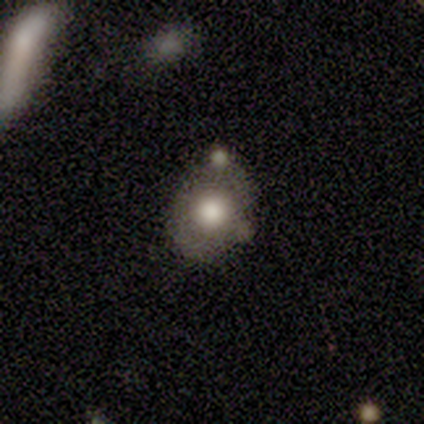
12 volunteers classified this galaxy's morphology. smooth 67%, featured or disk 25%, star or artifact 8%. Down the decision tree: how rounded — round (75%); merging — none (73%).